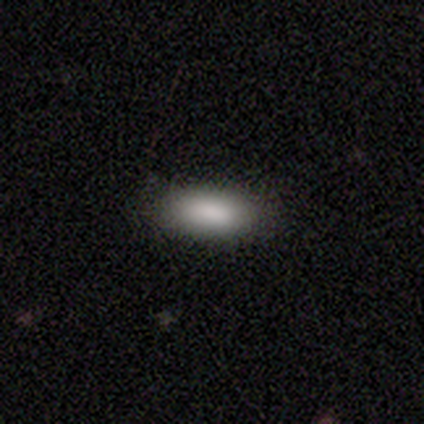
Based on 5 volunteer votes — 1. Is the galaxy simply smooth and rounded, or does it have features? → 100% smooth, 0% featured or disk, 0% star or artifact.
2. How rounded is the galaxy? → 100% in between, 0% round, 0% cigar-shaped.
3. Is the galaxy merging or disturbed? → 100% none, 0% minor disturbance, 0% major disturbance, 0% merger.